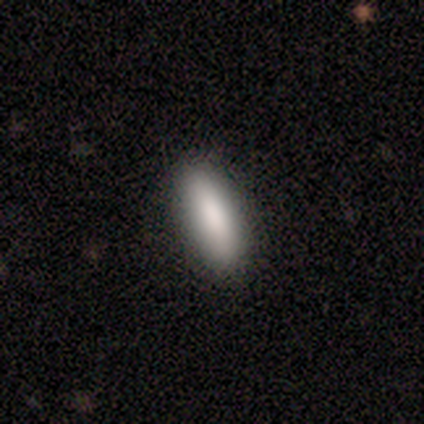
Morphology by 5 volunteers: Smooth or featured: smooth — 100%
How rounded: cigar-shaped — 60% (in between — 40%)
Merging: none — 60% (minor disturbance — 40%)